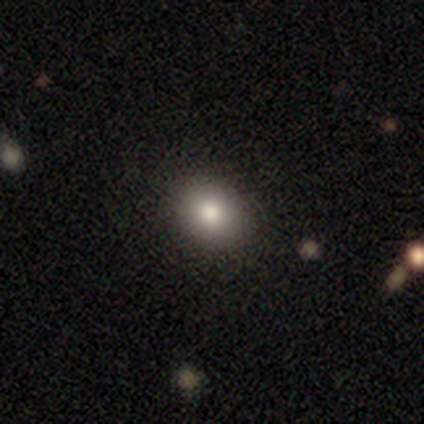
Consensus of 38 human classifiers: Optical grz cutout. It shows a smooth galaxy with no disk features (87%) that is round (70%). Merging: none (92%).